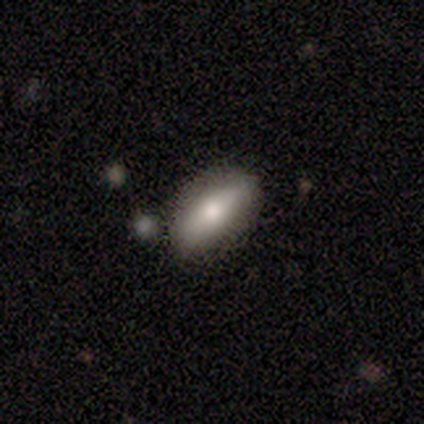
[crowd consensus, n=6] Smooth or featured: smooth — 50% (tied with featured or disk — 50%)
How rounded: in between — 67% (cigar-shaped — 33%)
Merging: none — 50% (minor disturbance — 33%)